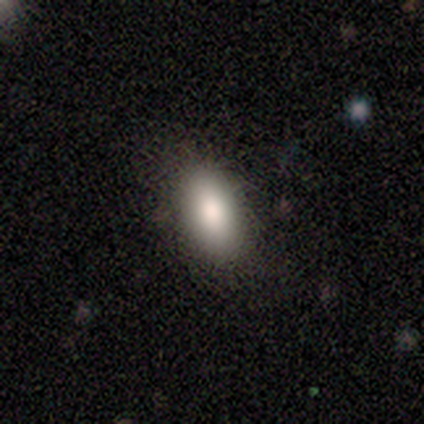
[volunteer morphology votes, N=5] A smooth galaxy with no disk features (80%) that is in between round and cigar-shaped (75%). Merging: none (100%).